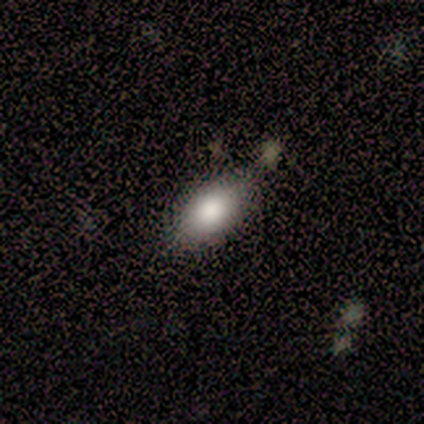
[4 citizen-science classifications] Volunteers were most divided on "how rounded": in between: 67%, round: 33%, cigar-shaped: 0%. More confident: merging — none (100%); smooth or featured — smooth (75%).